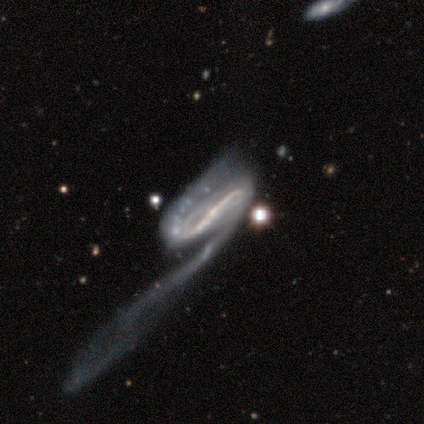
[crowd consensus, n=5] A featured or disk galaxy (80%) with a strong bar (75%), 2 (100%) tight (50%) spiral arms (100%) and a moderate central bulge (50%, tied with small). Merging: major disturbance (75%).